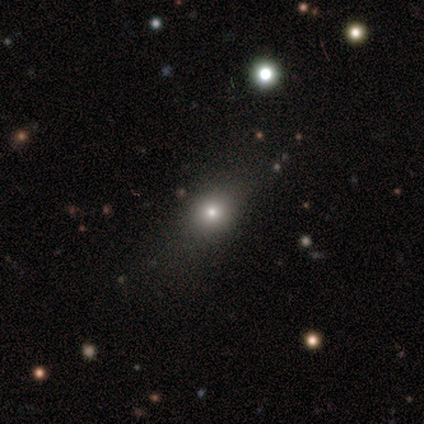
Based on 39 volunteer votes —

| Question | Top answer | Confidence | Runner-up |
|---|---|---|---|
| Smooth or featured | smooth | 69% | star or artifact (23%) |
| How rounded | round | 59% | in between (41%) |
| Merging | none | 77% | minor disturbance (13%) |